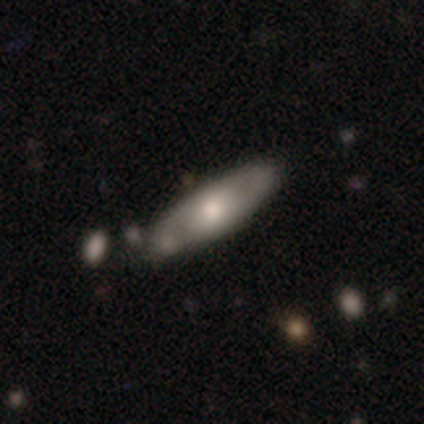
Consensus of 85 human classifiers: Morphology: type=featured or disk (51%); edge-on=no (60%); bar=no (81%); spiral arms=yes (54%); winding=tight (50%); arm count=can't tell (50%); bulge=moderate (62%); merging=none (65%).